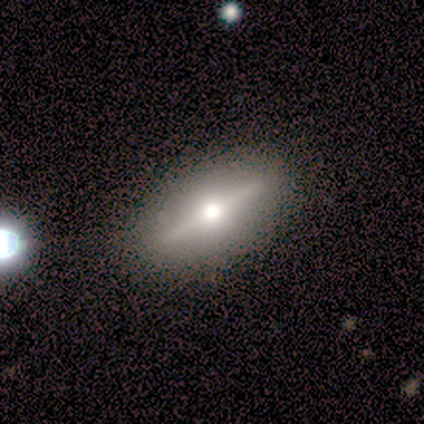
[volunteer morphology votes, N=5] smooth_or_featured: featured or disk (p=1.00)
disk_edge_on: yes (p=0.80) [alt: no p=0.20]
edge_on_bulge: rounded (p=1.00)
merging: none (p=1.00)